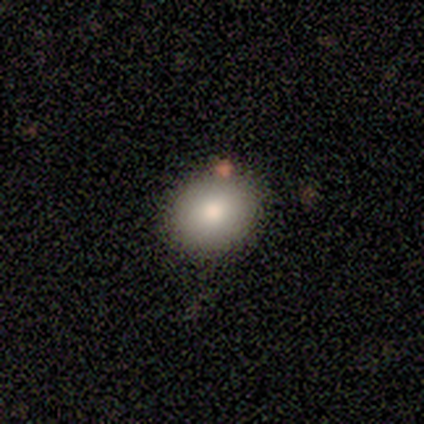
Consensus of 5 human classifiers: A smooth galaxy with no disk features (80%) that is round (75%). Merging: none (60%).